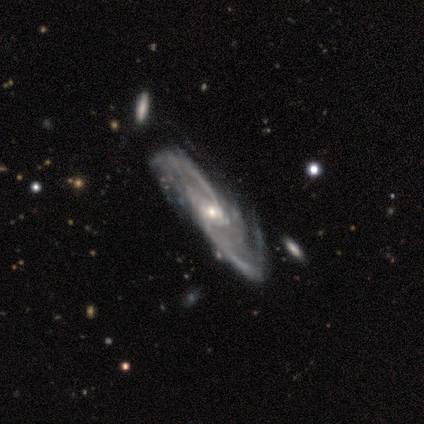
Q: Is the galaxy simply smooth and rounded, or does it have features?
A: featured or disk — 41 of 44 (93%).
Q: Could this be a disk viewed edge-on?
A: no — 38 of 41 (93%).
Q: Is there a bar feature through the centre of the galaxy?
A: no — 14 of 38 (37%).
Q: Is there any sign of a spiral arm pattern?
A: yes — 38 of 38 (100%).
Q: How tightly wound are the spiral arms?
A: medium — 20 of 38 (53%).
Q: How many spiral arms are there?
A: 2 — 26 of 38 (68%).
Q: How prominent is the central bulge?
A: small — 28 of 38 (74%).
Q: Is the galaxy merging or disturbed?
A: none — 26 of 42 (62%).